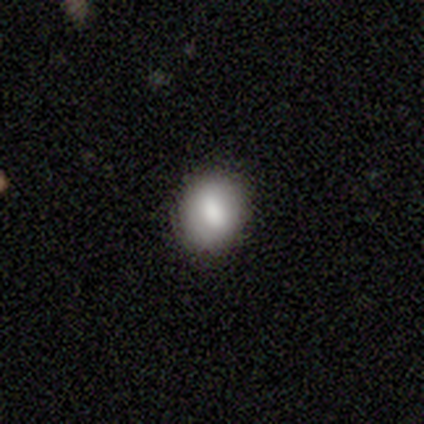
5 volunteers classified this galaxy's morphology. Volunteers were most divided on "smooth or featured": smooth: 60%, featured or disk: 40%, star or artifact: 0%. More confident: merging — none (80%); how rounded — in between (67%).